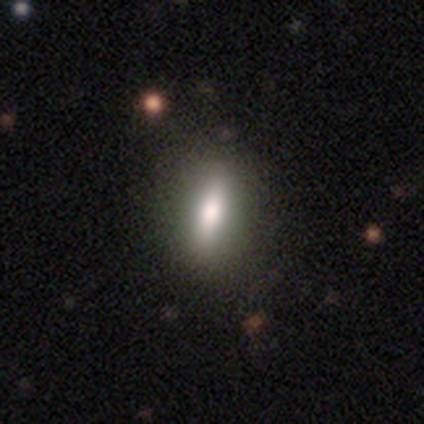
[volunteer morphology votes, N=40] type=smooth (80%); roundness=in between (47%); merging=none (79%).